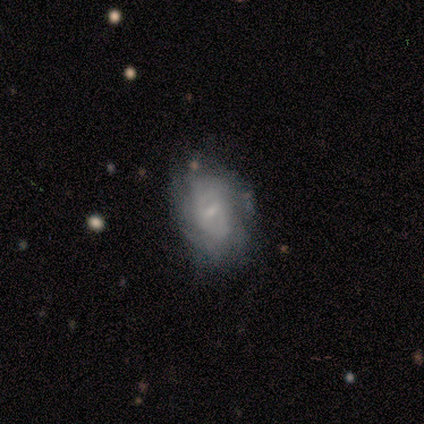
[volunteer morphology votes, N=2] Overall: smooth (50%, tied with featured or disk). How rounded: in between (100%). Merging: none (100%).